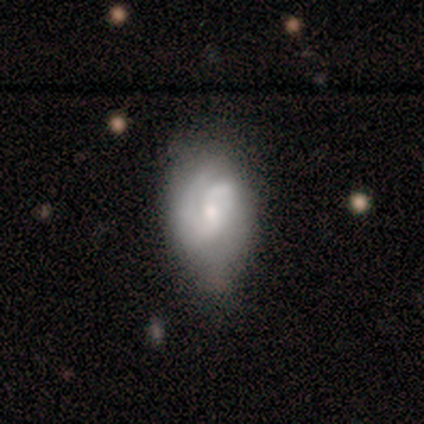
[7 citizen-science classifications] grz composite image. It shows a featured or disk galaxy (100%) with no bar (71%), 2 (57%) medium (57%) spiral arms (100%) and a small central bulge (57%). Merging: minor disturbance (71%).